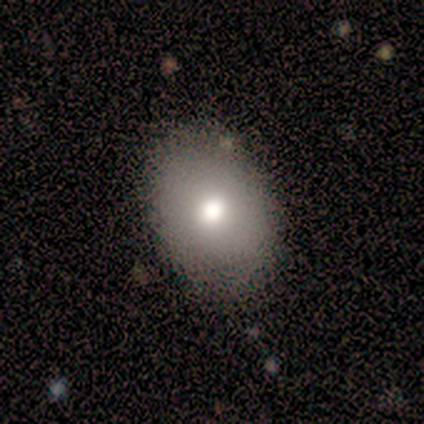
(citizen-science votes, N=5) Volunteers were most divided on "merging" (2-way tie): none: 40%, minor disturbance: 40%, major disturbance: 20%, merger: 0%. More confident: smooth or featured — smooth (100%); how rounded — in between (60%).